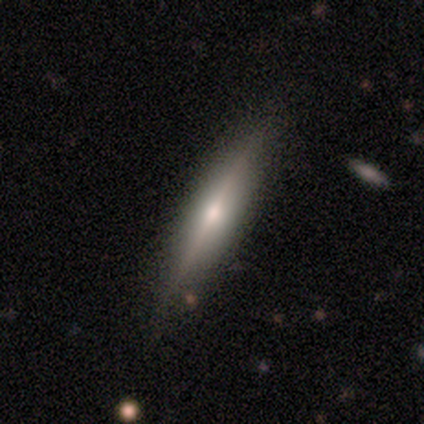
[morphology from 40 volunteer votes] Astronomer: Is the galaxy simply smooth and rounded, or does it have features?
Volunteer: featured or disk — 75%.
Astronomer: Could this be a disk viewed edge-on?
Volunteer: yes — 93%.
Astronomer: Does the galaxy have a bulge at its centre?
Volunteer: rounded — 93%.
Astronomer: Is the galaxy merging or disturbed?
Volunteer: none — 87%.